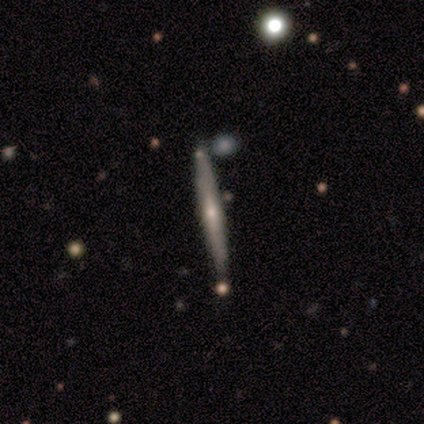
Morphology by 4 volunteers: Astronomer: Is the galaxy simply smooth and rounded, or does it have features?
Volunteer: featured or disk — 75%.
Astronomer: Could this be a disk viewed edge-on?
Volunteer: yes — 100%.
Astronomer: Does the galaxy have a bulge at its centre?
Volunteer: rounded — 67%.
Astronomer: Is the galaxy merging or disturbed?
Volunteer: none — 100%.